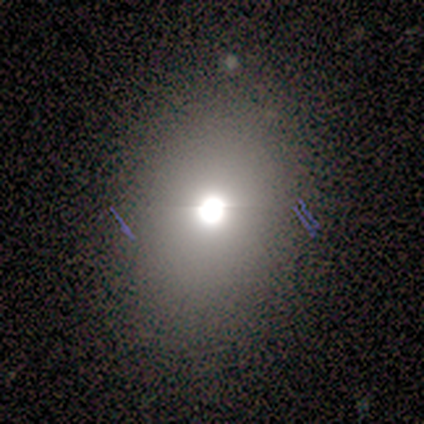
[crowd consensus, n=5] Overall: smooth (40%, tied with star or artifact). How rounded: round (100%). Merging: none (100%).